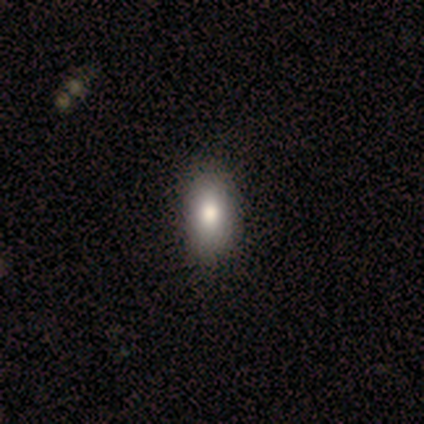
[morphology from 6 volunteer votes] Smooth or featured? 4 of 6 (67%) said smooth. How rounded? 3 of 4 (75%) said in between. Merging? 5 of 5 (100%) said none.